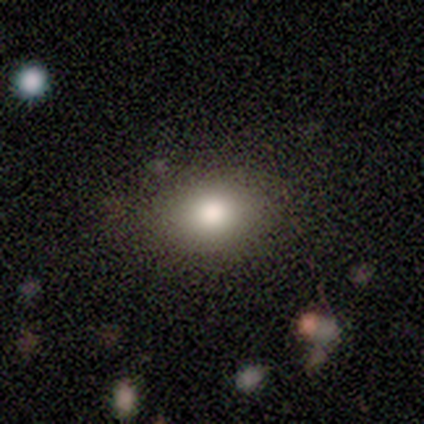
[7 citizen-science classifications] smooth_or_featured: smooth (p=0.86) [alt: featured or disk p=0.14]
how_rounded: in between (p=1.00)
merging: none (p=1.00)